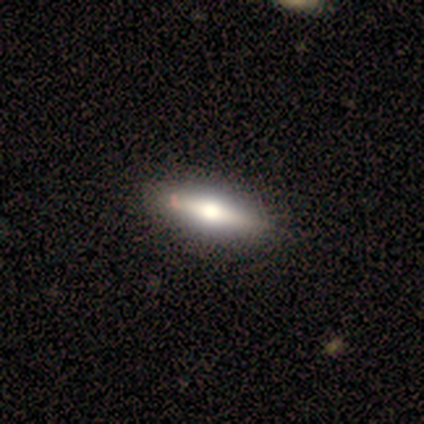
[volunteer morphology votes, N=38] Smooth or featured: smooth — 53% (featured or disk — 45%)
How rounded: in between — 50% (tied with cigar-shaped — 50%)
Merging: none — 65% (minor disturbance — 8%)